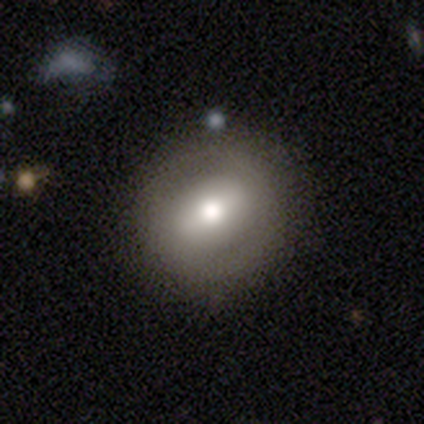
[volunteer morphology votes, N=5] Q: Smooth or featured?
A: smooth (60%); runner-up: featured or disk (40%)
Q: How rounded?
A: round (100%)
Q: Merging?
A: none (100%)